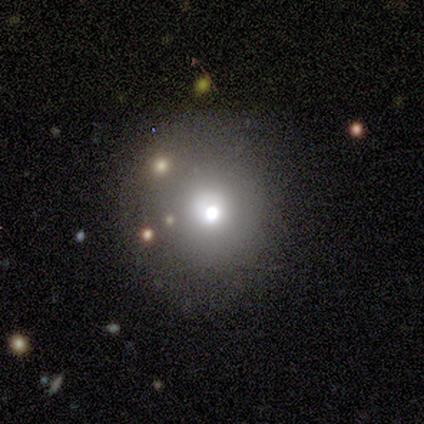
Smooth or featured: smooth — 60% (star or artifact — 40%)
How rounded: round — 100%
Merging: none — 100%